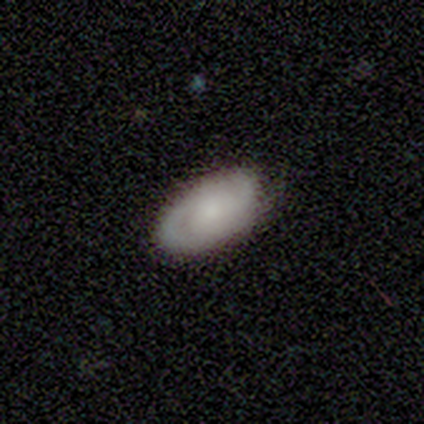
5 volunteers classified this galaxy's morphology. type=featured or disk (60%); edge-on=no (100%); bar=no (100%); spiral arms=yes (100%); winding=loose (100%); arm count=2 (100%); bulge=small (67%); merging=none (60%).